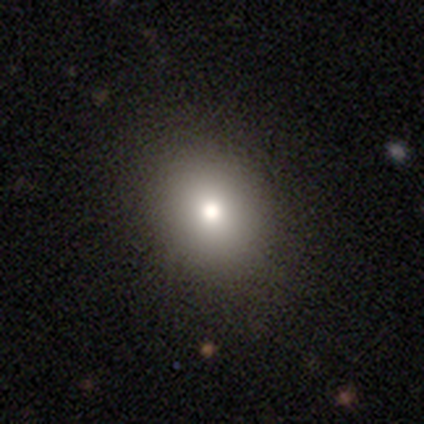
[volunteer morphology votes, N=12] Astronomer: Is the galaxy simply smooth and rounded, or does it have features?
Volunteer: smooth — 75%.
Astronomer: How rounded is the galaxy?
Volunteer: round — 67%.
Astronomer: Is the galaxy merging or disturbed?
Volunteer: none — 89%.